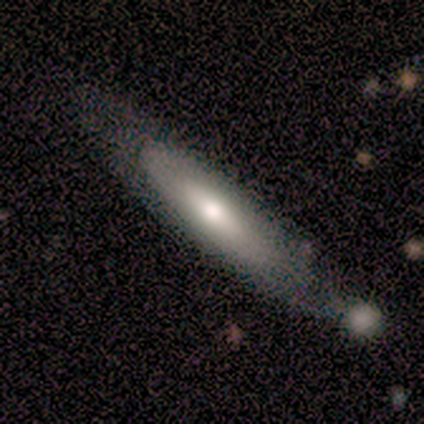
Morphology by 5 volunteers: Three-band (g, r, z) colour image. It shows a featured or disk galaxy (80%) viewed edge-on (50%, tied with no) with no central bulge (100%). Merging: none (100%).